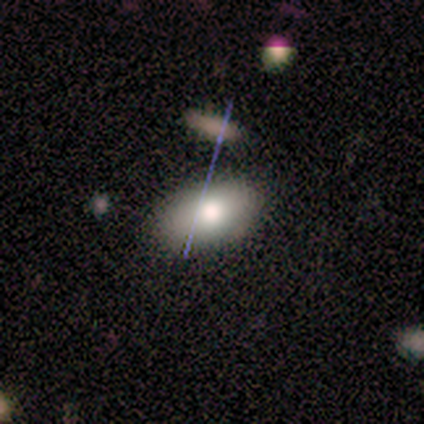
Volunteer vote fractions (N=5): Smooth or featured? smooth (100%)
How rounded? in between (60%)
Merging? none (80%)